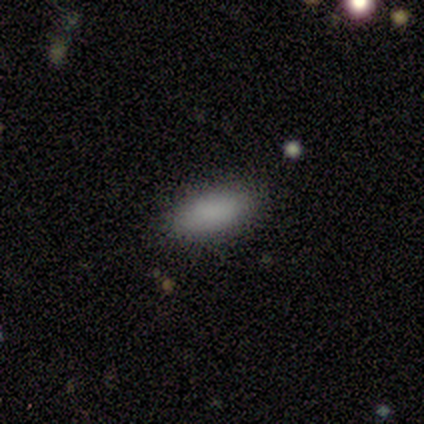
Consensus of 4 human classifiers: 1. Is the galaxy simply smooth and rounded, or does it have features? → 100% smooth, 0% featured or disk, 0% star or artifact.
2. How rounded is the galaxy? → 100% in between, 0% round, 0% cigar-shaped.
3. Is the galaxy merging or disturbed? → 75% none, 25% minor disturbance, 0% major disturbance, 0% merger.